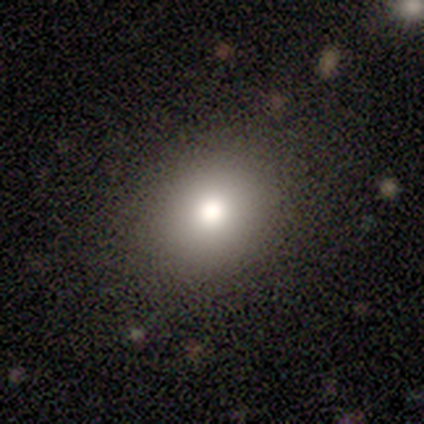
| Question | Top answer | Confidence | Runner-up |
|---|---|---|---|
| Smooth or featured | smooth | 80% | featured or disk (20%) |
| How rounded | round | 75% | in between (25%) |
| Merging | none | 80% | merger (20%) |